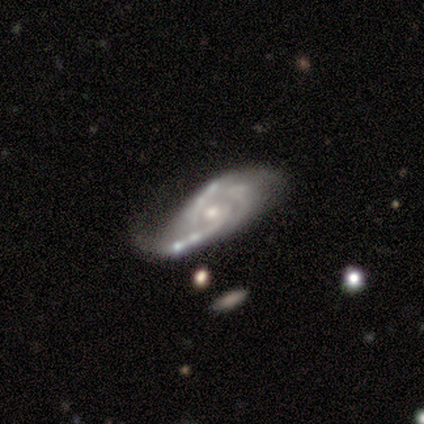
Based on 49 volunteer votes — Overall: featured or disk (96%). Edge-on disk: no (98%). Bar: no (74%). Spiral arms: yes (98%). Spiral arm count: 2 (38%, tied with 3). Spiral winding: medium (49%; tight 33%). Bulge size: moderate (50%; small 46%). Merging: none (40%; minor disturbance 26%).